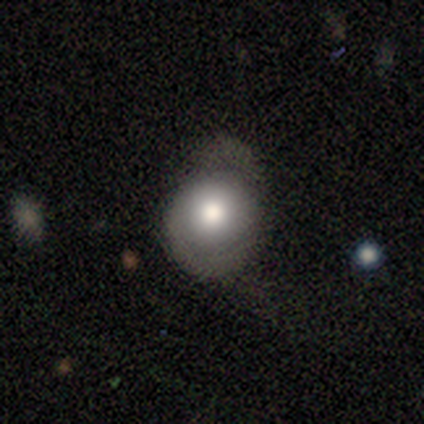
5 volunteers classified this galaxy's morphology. Overall: featured or disk (60%; smooth 40%). Edge-on disk: no (67%; yes 33%). Bar: no (100%). Spiral arms: yes (100%). Spiral arm count: 1 (50%, tied with 2). Spiral winding: medium (100%). Bulge size: dominant (50%, tied with moderate). Merging: minor disturbance (60%; none 20%).